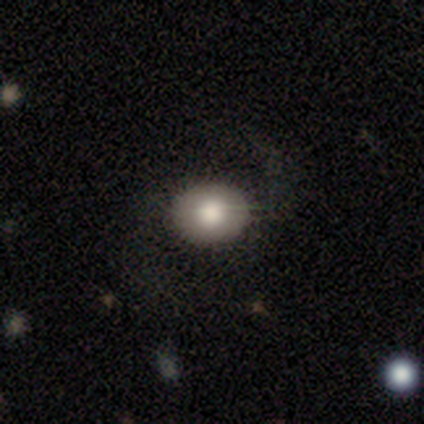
Smooth or featured?
  - smooth: 100% *
  - featured or disk: 0%
  - star or artifact: 0%
How rounded?
  - in between: 67% *
  - round: 33%
  - cigar-shaped: 0%
Merging?
  - none: 100% *
  - minor disturbance: 0%
  - major disturbance: 0%
  - merger: 0%